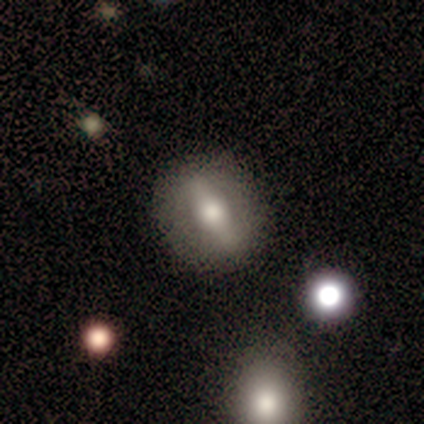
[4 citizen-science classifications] smooth-or-featured: smooth: 75% | featured or disk: 25% | star or artifact: 0%
  how-rounded: in between: 67% | cigar-shaped: 33% | round: 0%
  merging: none: 50% (tied) | minor disturbance: 50% (tied) | major disturbance: 0% | merger: 0%